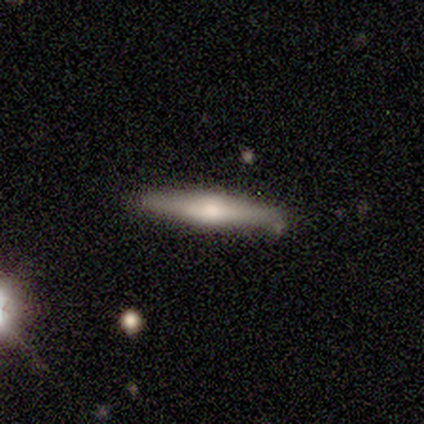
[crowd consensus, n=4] A smooth galaxy with no disk features (50%, tied with featured or disk) that is cigar-shaped (100%). Merging: none (75%).